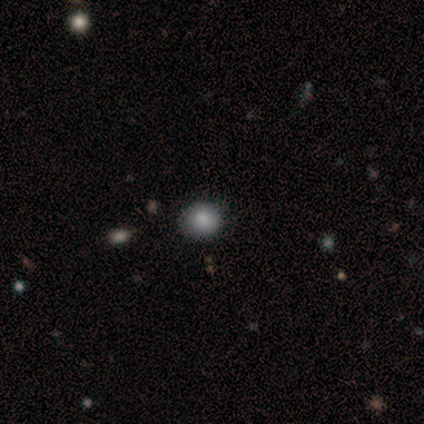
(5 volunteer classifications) Smooth or featured: smooth — 40% (tied with featured or disk — 40%)
How rounded: round — 100%
Merging: none — 100%